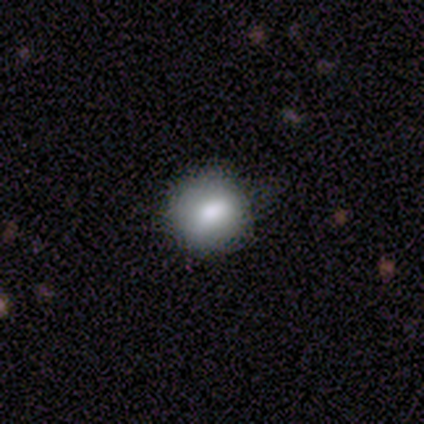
Overall: smooth (40%, tied with star or artifact). How rounded: round (100%). Merging: none (67%; minor disturbance 33%).